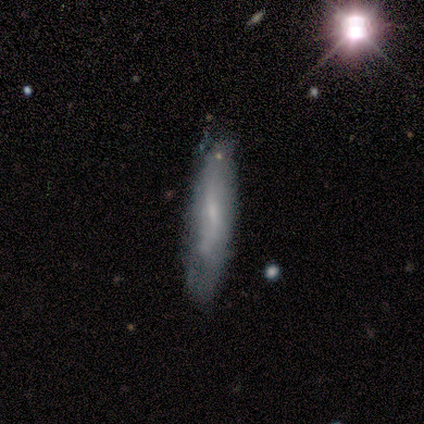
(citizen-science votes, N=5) This appears to be a smooth galaxy with no disk features (40%, tied with featured or disk) that is in between round and cigar-shaped (50%, tied with cigar-shaped). Merging: none (100%).